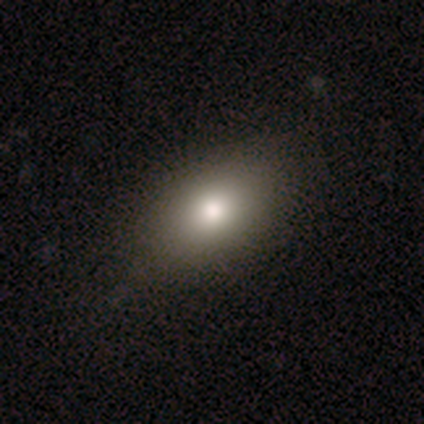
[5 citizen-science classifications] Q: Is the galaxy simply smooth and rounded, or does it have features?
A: smooth — 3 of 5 (60%).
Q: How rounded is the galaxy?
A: in between — 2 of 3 (67%).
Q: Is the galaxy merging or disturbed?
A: none — 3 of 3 (100%).